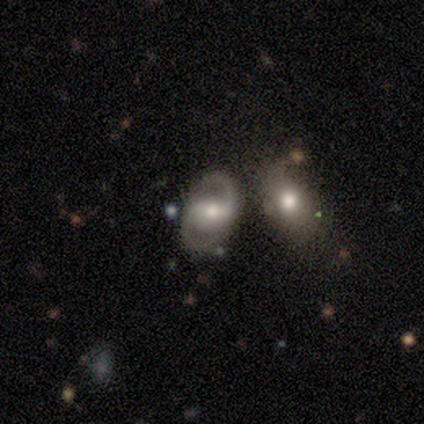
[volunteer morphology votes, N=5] This is clearly a featured or disk galaxy (100%). It is clearly not viewed edge-on (100%). Bar: likely weak (60%). Spiral arm pattern: clearly yes (80%). Spiral arm count: likely 2 (75%). Spiral winding: likely loose (75%). Central bulge: clearly moderate (80%). Merging: likely merger (60%).